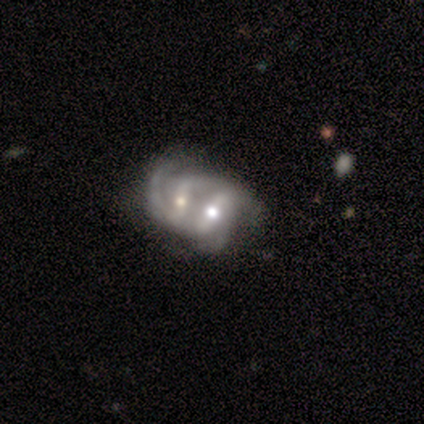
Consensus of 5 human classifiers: Q: Smooth or featured?
A: featured or disk (100%)
Q: Edge-on disk?
A: no (80%); runner-up: yes (20%)
Q: Bar?
A: strong (100%)
Q: Spiral arms?
A: yes (100%)
Q: Spiral winding?
A: medium (75%); runner-up: loose (25%)
Q: Spiral arm count?
A: 2 (75%); runner-up: can't tell (25%)
Q: Bulge size?
A: moderate (75%); runner-up: large (25%)
Q: Merging?
A: merger (100%)